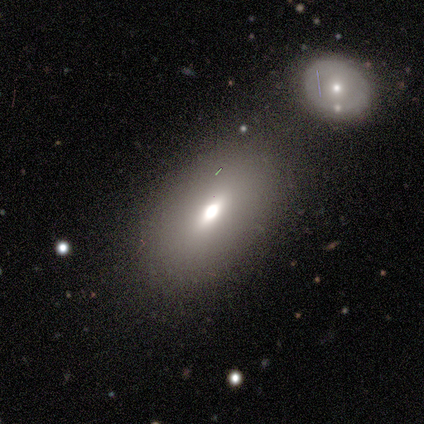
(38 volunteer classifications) smooth 76%, featured or disk 13%, star or artifact 11%. Down the decision tree: how rounded — in between (90%); merging — none (59%).